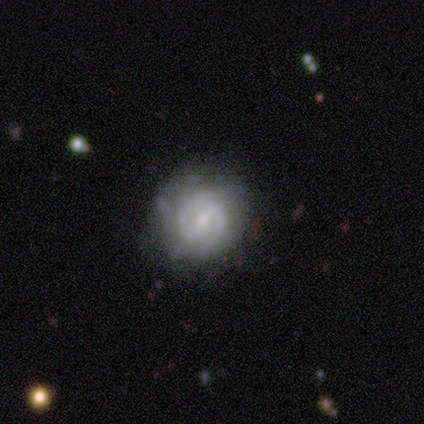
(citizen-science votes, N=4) Volunteers were most divided on "smooth or featured": star or artifact: 50%, smooth: 25%, featured or disk: 25%.